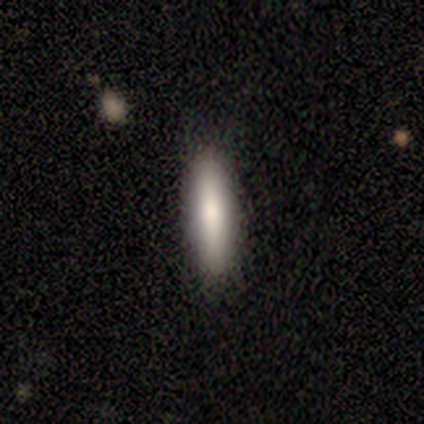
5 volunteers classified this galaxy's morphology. smooth_or_featured: smooth (p=1.00)
how_rounded: cigar-shaped (p=0.80) [alt: in between p=0.20]
merging: none (p=0.80) [alt: minor disturbance p=0.20]